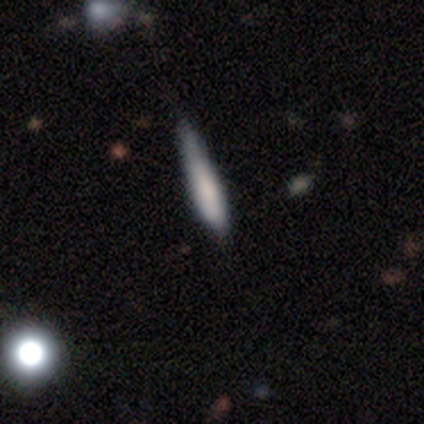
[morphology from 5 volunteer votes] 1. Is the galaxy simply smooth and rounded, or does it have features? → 100% smooth, 0% featured or disk, 0% star or artifact.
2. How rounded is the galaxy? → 100% cigar-shaped, 0% round, 0% in between.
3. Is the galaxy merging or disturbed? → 60% none, 20% minor disturbance, 20% major disturbance, 0% merger.